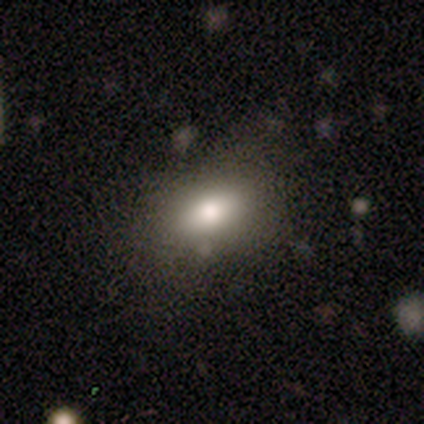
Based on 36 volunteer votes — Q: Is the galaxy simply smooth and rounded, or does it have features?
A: smooth — 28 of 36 (78%).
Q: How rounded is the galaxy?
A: in between — 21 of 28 (75%).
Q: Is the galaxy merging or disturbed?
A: none — 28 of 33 (85%).